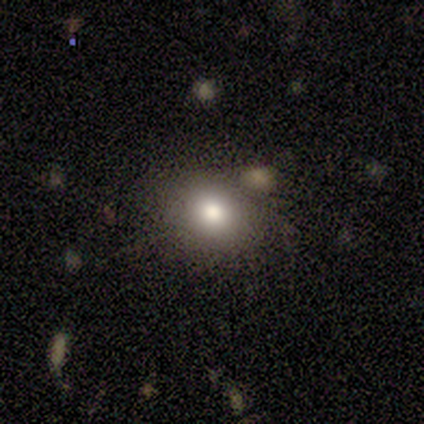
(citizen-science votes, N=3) This is clearly a smooth galaxy (100%). How rounded: clearly round (100%). Merging: clearly none (100%).